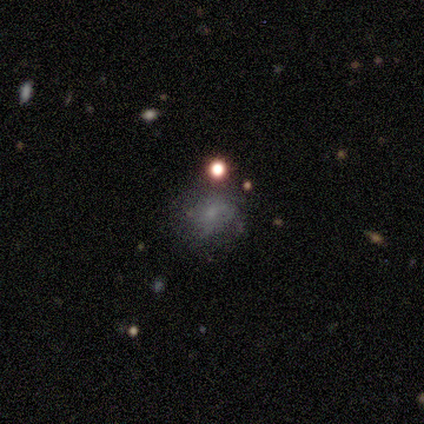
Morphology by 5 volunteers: Smooth or featured? smooth (40%, tied with featured or disk)
How rounded? round (50%, tied with in between)
Merging? none (100%)